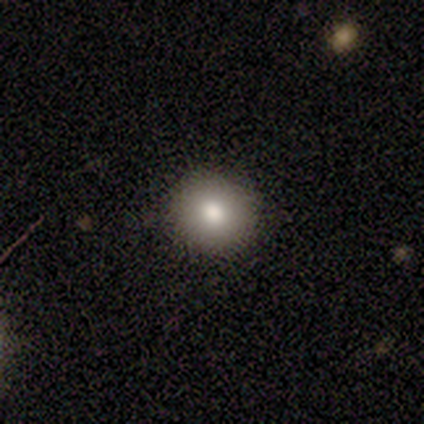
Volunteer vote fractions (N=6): Consensus on every question: smooth or featured — smooth (100%); how rounded — round (100%); merging — none (100%).